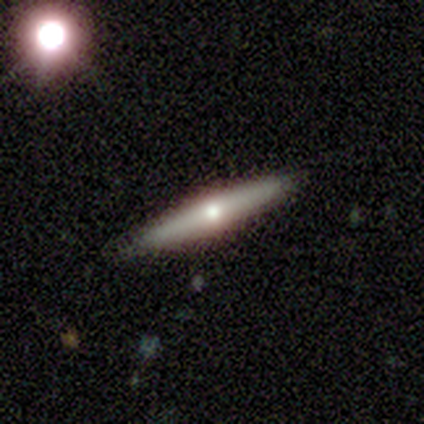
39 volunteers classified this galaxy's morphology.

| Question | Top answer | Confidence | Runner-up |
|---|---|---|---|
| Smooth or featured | featured or disk | 56% | smooth (38%) |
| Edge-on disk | yes | 91% | no (9%) |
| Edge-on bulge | rounded | 90% | none (10%) |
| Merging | none | 95% | minor disturbance (3%) |